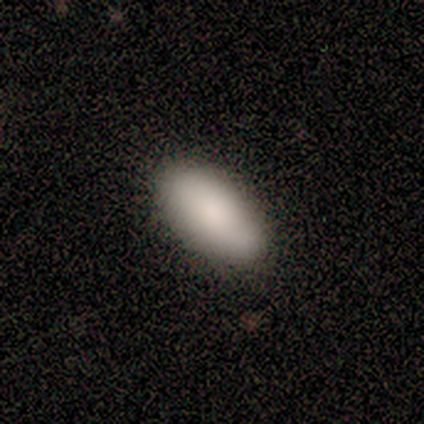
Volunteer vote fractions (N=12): A smooth galaxy with no disk features (100%) that is in between round and cigar-shaped (83%).

Vote fractions:
- Smooth or featured? smooth: 100% / featured or disk: 0% / star or artifact: 0%
- How rounded? in between: 83% / round: 8% / cigar-shaped: 8%
- Merging? none: 92% / minor disturbance: 8% / major disturbance: 0% / merger: 0%